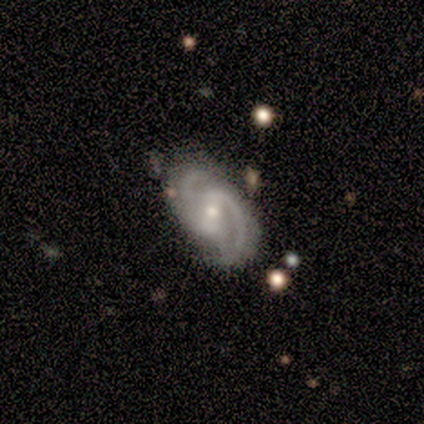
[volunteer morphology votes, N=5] smooth-or-featured: featured or disk: 80% | smooth: 20% | star or artifact: 0%
  disk-edge-on: no: 100% | yes: 0%
    bar: strong: 75% | weak: 25% | no: 0%
    has-spiral-arms: yes: 100% | no: 0%
      spiral-winding: tight: 50% (tied) | medium: 50% (tied) | loose: 0%
      spiral-arm-count: 2: 100% | 1: 0% | 3: 0% | 4: 0% | more than 4: 0% | can't tell: 0%
    bulge-size: moderate: 50% (tied) | small: 50% (tied) | dominant: 0% | large: 0% | none: 0%
  merging: none: 60% | minor disturbance: 20% | major disturbance: 20% | merger: 0%